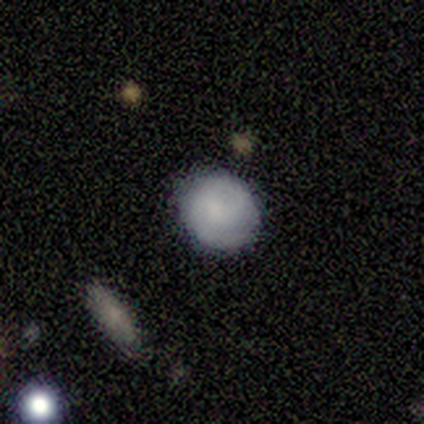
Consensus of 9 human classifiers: smooth_or_featured: smooth (p=0.78) [alt: featured or disk p=0.22]
how_rounded: round (p=0.71) [alt: in between p=0.29]
merging: none (p=0.67) [alt: minor disturbance p=0.33]